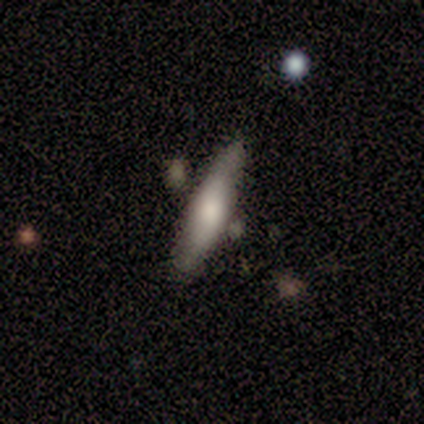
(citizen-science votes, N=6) Smooth or featured?
  - smooth: 67% *
  - featured or disk: 33%
  - star or artifact: 0%
How rounded?
  - cigar-shaped: 75% *
  - in between: 25%
  - round: 0%
Merging?
  - none: 67% *
  - minor disturbance: 33%
  - major disturbance: 0%
  - merger: 0%